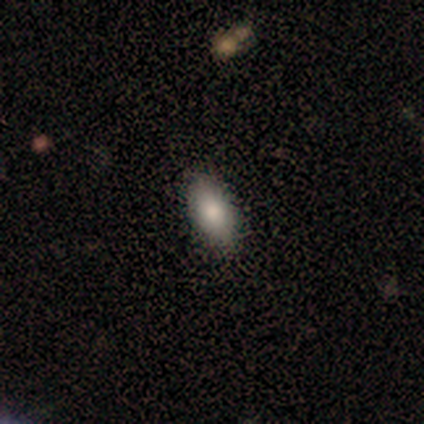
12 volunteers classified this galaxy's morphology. Q: Smooth or featured?
A: smooth (75%); runner-up: featured or disk (17%)
Q: How rounded?
A: in between (100%)
Q: Merging?
A: none (91%); runner-up: minor disturbance (9%)